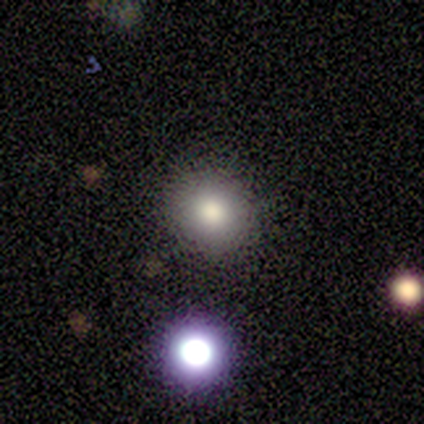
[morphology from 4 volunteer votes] Volunteers were most divided on "smooth or featured": smooth: 50%, featured or disk: 25%, star or artifact: 25%. More confident: how rounded — round (100%); merging — none (100%).